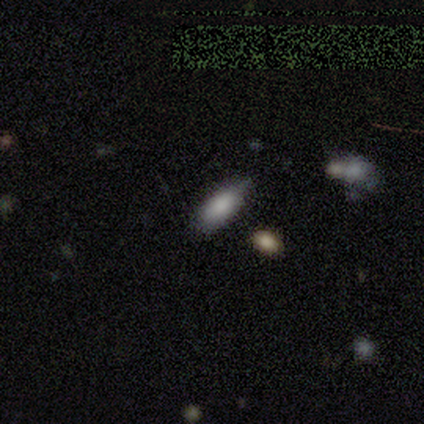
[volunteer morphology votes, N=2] smooth 50% (tied), star or artifact 50% (tied), featured or disk 0%. Down the decision tree: how rounded — in between (100%); merging — none (100%).